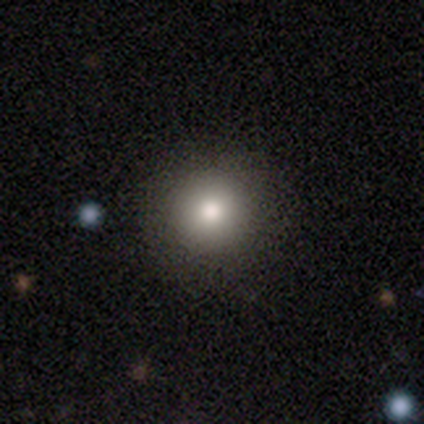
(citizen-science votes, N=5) Smooth or featured: smooth — 60% (star or artifact — 40%)
How rounded: round — 100%
Merging: none — 100%